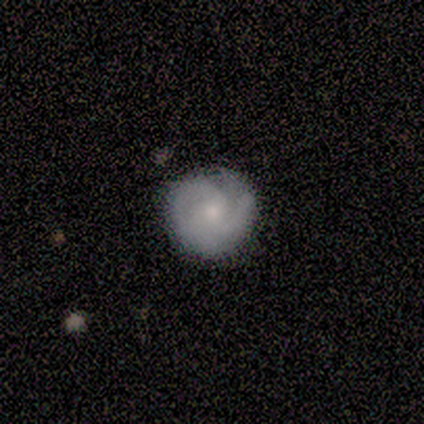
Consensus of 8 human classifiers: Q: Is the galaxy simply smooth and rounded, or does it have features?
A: featured or disk — 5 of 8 (62%).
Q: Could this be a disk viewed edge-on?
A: no — 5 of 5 (100%).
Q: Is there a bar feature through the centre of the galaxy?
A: no — 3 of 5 (60%).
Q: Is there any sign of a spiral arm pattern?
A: yes — 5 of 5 (100%).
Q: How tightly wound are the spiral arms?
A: tight — 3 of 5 (60%).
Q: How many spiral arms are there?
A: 2 — 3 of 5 (60%).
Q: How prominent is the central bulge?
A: moderate — 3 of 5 (60%).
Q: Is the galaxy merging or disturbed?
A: none — 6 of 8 (75%).